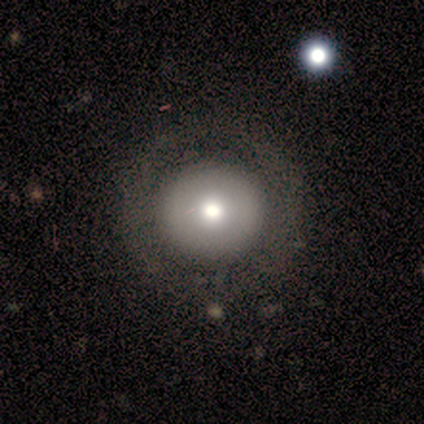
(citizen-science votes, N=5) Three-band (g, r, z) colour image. It shows a featured or disk galaxy (60%) with no bar (100%), no spiral arms (100%) and a large central bulge (67%). Merging: none (60%).